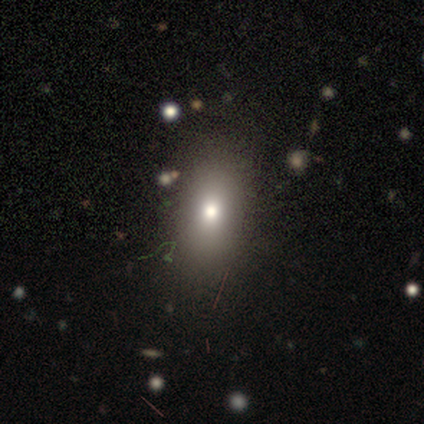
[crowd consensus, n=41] Morphology: type=smooth (83%); roundness=in between (91%); merging=none (92%).